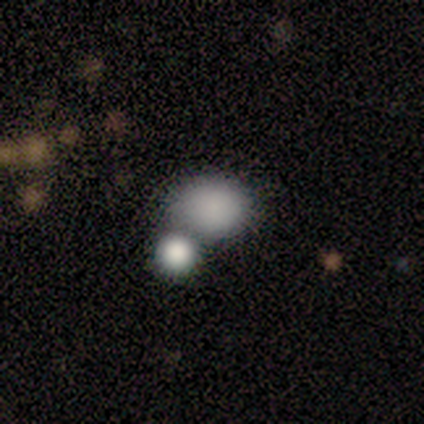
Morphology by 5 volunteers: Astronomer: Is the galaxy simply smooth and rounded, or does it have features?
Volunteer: smooth — 80%.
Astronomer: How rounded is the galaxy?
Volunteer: round — 50%, tied with in between at 50%.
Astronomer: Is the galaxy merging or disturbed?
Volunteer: merger — 50%.